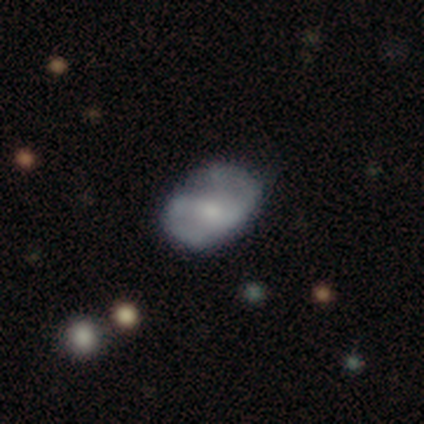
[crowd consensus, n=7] featured or disk 86%, smooth 14%, star or artifact 0%. Down the decision tree: edge-on disk — no (100%); bar — no (50%); spiral arms — yes (100%); spiral arm count — 2 (100%); spiral winding — medium (83%); bulge size — small (50%); merging — none (71%).